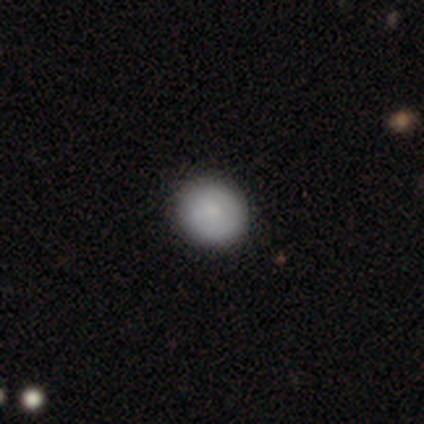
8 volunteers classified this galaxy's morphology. Q: Smooth or featured?
A: smooth (62%); runner-up: featured or disk (38%)
Q: How rounded?
A: round (80%); runner-up: in between (20%)
Q: Merging?
A: none (75%); runner-up: minor disturbance (12%)